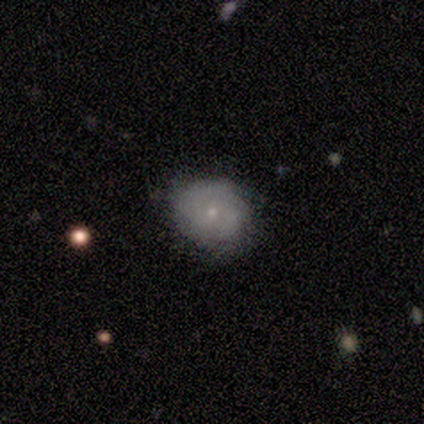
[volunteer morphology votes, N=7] Smooth or featured?
  - smooth: 71% *
  - featured or disk: 29%
  - star or artifact: 0%
How rounded?
  - round: 100% *
  - in between: 0%
  - cigar-shaped: 0%
Merging?
  - none: 71% *
  - minor disturbance: 29%
  - major disturbance: 0%
  - merger: 0%